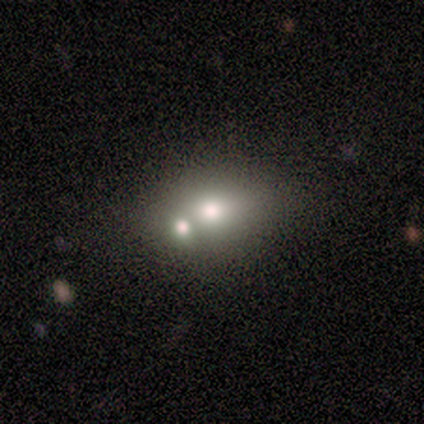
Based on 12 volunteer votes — smooth_or_featured: smooth (p=0.67) [alt: featured or disk p=0.25]
how_rounded: in between (p=0.75) [alt: round p=0.25]
merging: none (p=0.45) [tied with: merger p=0.45]